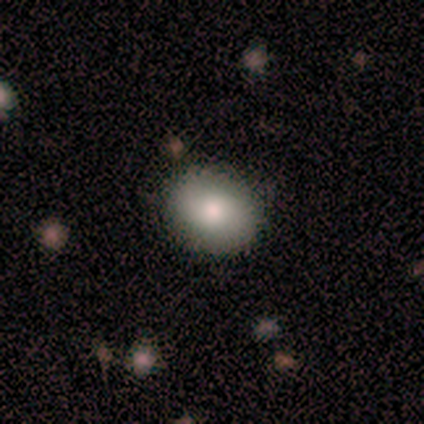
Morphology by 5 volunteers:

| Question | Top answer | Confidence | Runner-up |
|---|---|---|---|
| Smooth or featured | smooth | 80% | featured or disk (20%) |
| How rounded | round | 75% | in between (25%) |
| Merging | none | 80% | minor disturbance (20%) |